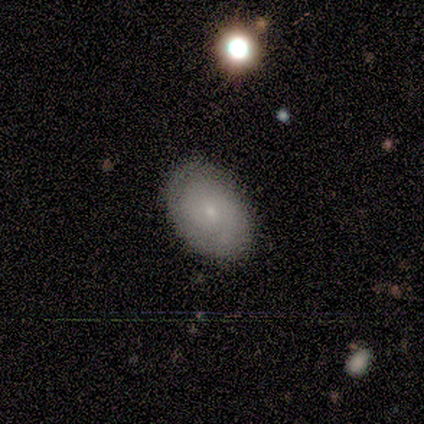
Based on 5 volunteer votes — Smooth or featured?
  - featured or disk: 60% *
  - smooth: 40%
  - star or artifact: 0%
Edge-on disk?
  - no: 100% *
  - yes: 0%
Bar?
  - no: 100% *
  - strong: 0%
  - weak: 0%
Spiral arms?
  - yes: 100% *
  - no: 0%
Spiral winding?
  - tight: 33% * (tied)
  - medium: 33% * (tied)
  - loose: 33% * (tied)
Spiral arm count?
  - 1: 67% *
  - 2: 33%
  - 3: 0%
  - 4: 0%
  - more than 4: 0%
  - can't tell: 0%
Bulge size?
  - small: 100% *
  - dominant: 0%
  - large: 0%
  - moderate: 0%
  - none: 0%
Merging?
  - none: 100% *
  - minor disturbance: 0%
  - major disturbance: 0%
  - merger: 0%